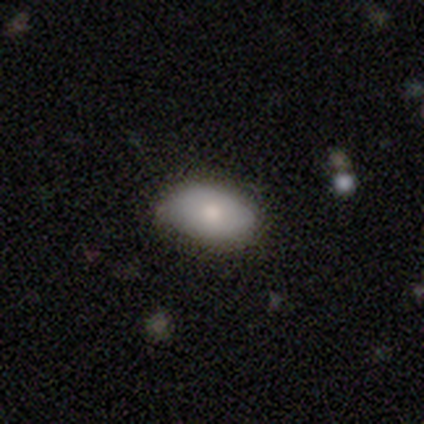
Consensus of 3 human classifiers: This is clearly a smooth galaxy (100%). How rounded: clearly in between (100%). Merging: likely minor disturbance (67%).